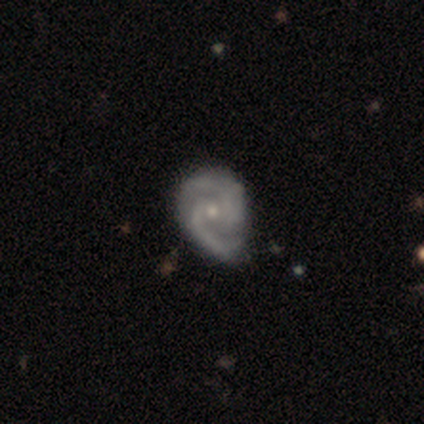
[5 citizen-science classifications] Q: Smooth or featured?
A: featured or disk (100%)
Q: Edge-on disk?
A: no (100%)
Q: Bar?
A: no (60%); runner-up: strong (20%)
Q: Spiral arms?
A: yes (100%)
Q: Spiral winding?
A: tight (80%); runner-up: medium (20%)
Q: Spiral arm count?
A: 2 (80%); runner-up: can't tell (20%)
Q: Bulge size?
A: moderate (60%); runner-up: small (40%)
Q: Merging?
A: none (40%); tied with: minor disturbance (40%)